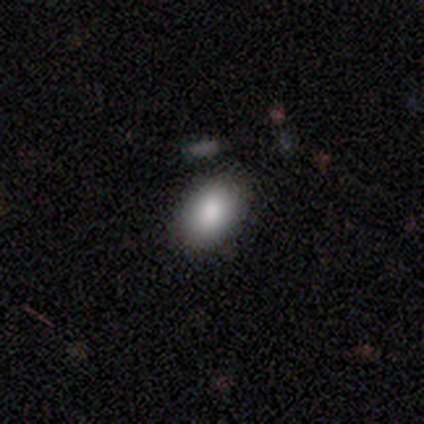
A smooth galaxy with no disk features (100%) that is in between round and cigar-shaped (100%).

Vote fractions:
- Smooth or featured? smooth: 100% / featured or disk: 0% / star or artifact: 0%
- How rounded? in between: 100% / round: 0% / cigar-shaped: 0%
- Merging? none: 100% / minor disturbance: 0% / major disturbance: 0% / merger: 0%